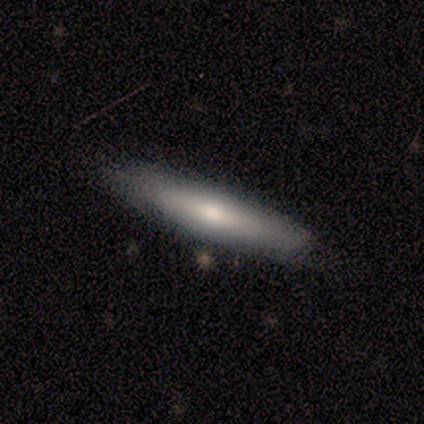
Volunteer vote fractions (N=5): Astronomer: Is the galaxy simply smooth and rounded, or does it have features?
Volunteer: smooth — 40%, tied with featured or disk at 40%.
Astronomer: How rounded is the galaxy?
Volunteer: cigar-shaped — 100%.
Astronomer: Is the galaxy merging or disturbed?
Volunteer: none — 75%.